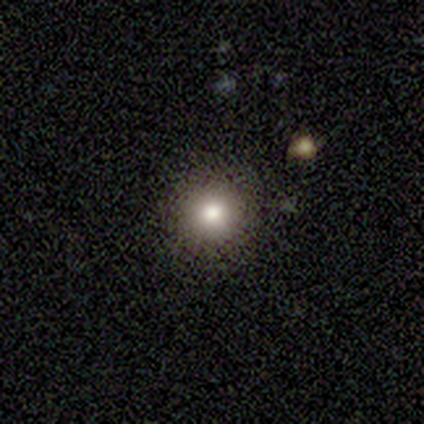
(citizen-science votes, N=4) Smooth or featured? 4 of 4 (100%) said smooth. How rounded? 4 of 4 (100%) said round. Merging? 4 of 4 (100%) said none.